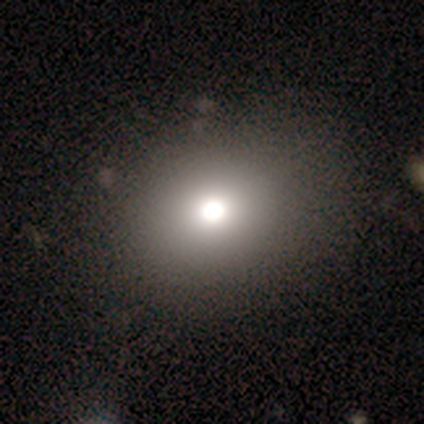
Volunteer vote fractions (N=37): Overall: smooth (62%). How rounded: round (74%). Merging: none (76%).